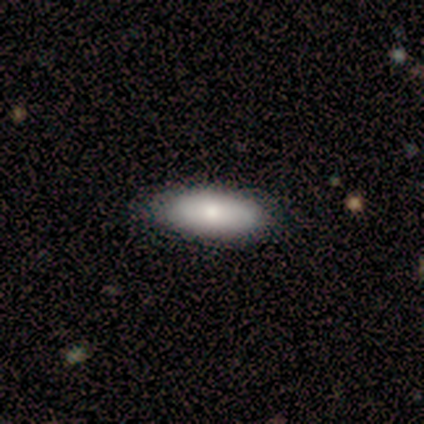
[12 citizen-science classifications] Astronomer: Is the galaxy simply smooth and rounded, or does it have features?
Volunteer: smooth — 75%.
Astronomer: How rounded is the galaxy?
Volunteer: in between — 78%.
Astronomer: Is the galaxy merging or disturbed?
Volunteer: none — 92%.